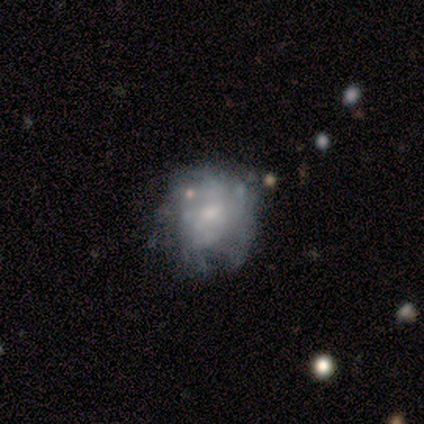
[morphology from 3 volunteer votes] smooth-or-featured: featured or disk: 67% | smooth: 33% | star or artifact: 0%
  disk-edge-on: yes: 50% (tied) | no: 50% (tied)
    edge-on-bulge: boxy: 100% | none: 0% | rounded: 0%
  merging: major disturbance: 67% | minor disturbance: 33% | none: 0% | merger: 0%